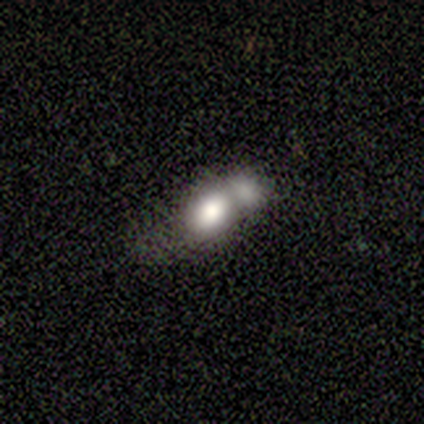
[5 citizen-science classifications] Smooth or featured? 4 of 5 (80%) said smooth. How rounded? 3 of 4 (75%) said in between. Merging? 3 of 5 (60%) said merger.